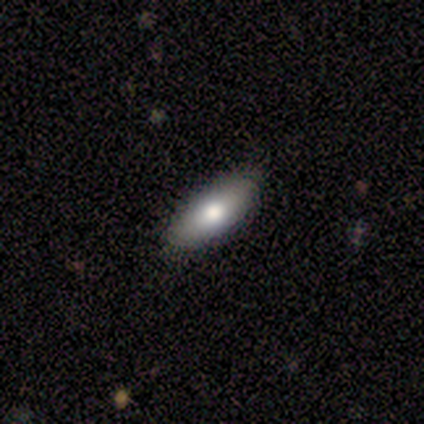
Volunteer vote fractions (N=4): Smooth or featured: smooth — 75% (star or artifact — 25%)
How rounded: in between — 100%
Merging: none — 67% (minor disturbance — 33%)